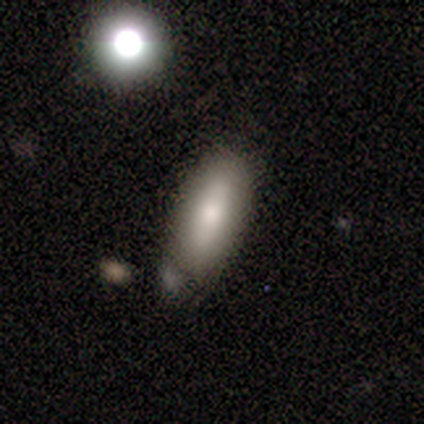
Smooth or featured?
  - smooth: 80% *
  - featured or disk: 20%
  - star or artifact: 0%
How rounded?
  - in between: 50% * (tied)
  - cigar-shaped: 50% * (tied)
  - round: 0%
Merging?
  - minor disturbance: 60% *
  - none: 20%
  - major disturbance: 20%
  - merger: 0%